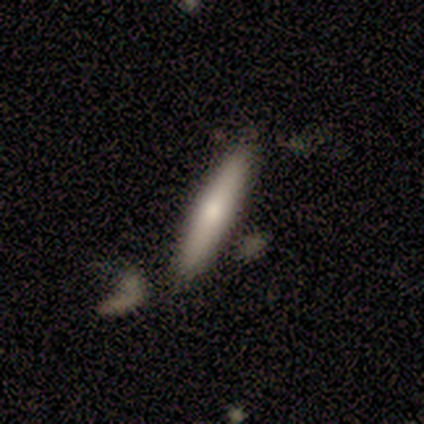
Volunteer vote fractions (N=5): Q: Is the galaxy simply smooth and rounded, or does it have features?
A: featured or disk — 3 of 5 (60%).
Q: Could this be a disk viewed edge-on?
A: yes — 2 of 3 (67%).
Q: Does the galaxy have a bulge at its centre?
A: none — 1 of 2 (50%, tied with rounded).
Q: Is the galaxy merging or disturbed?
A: none — 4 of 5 (80%).